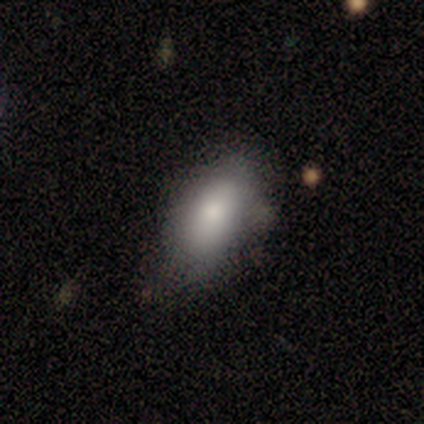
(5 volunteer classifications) Smooth or featured: smooth — 60% (featured or disk — 20%)
How rounded: in between — 100%
Merging: none — 50% (minor disturbance — 25%)